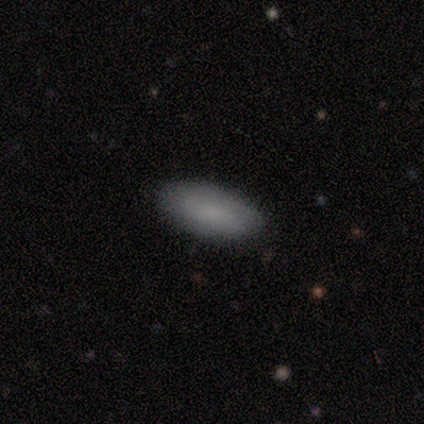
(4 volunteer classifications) A smooth galaxy with no disk features (100%) that is in between round and cigar-shaped (75%). Merging: none (100%).